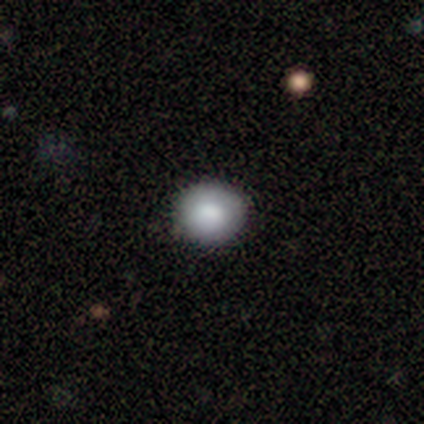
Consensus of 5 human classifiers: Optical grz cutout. It shows a smooth galaxy with no disk features (60%) that is round (67%). Merging: none (80%).